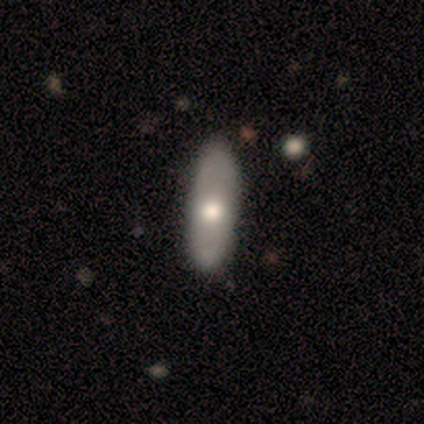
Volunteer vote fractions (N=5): Overall: smooth (60%; featured or disk 40%). How rounded: in between (67%; cigar-shaped 33%). Merging: none (80%).